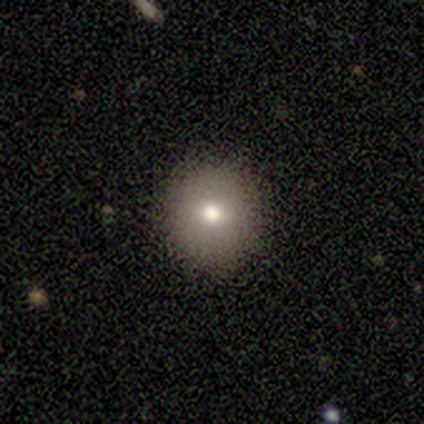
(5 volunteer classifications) Smooth or featured?
  - smooth: 80% *
  - featured or disk: 20%
  - star or artifact: 0%
How rounded?
  - round: 75% *
  - in between: 25%
  - cigar-shaped: 0%
Merging?
  - none: 100% *
  - minor disturbance: 0%
  - major disturbance: 0%
  - merger: 0%